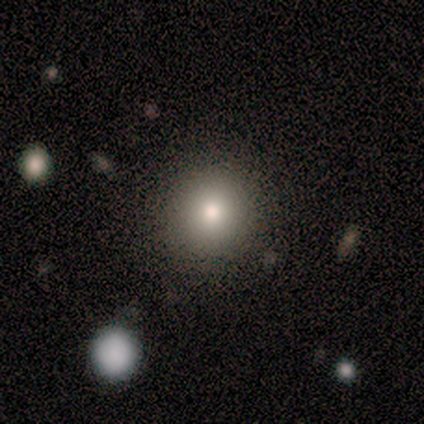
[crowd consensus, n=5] smooth-or-featured: smooth: 80% | star or artifact: 20% | featured or disk: 0%
  how-rounded: round: 100% | in between: 0% | cigar-shaped: 0%
  merging: none: 75% | major disturbance: 25% | minor disturbance: 0% | merger: 0%